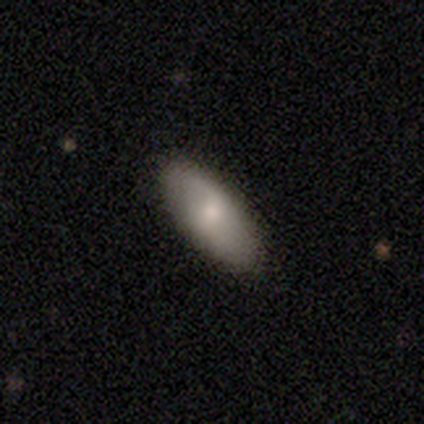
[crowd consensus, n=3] A smooth galaxy with no disk features (100%) that is in between round and cigar-shaped (67%). Merging: none (67%).